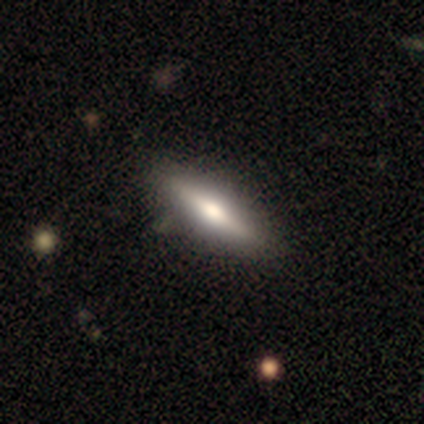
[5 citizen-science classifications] A smooth galaxy with no disk features (60%) that is cigar-shaped (67%). Merging: none (75%).